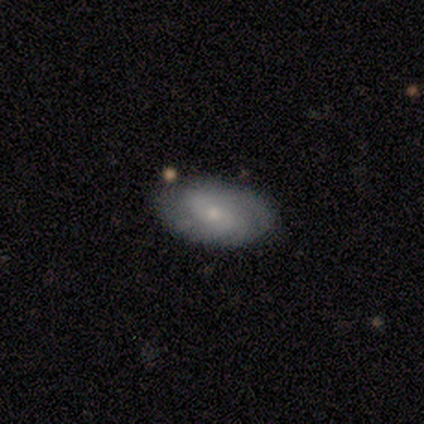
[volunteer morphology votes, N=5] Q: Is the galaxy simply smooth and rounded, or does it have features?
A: featured or disk — 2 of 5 (40%, tied with star or artifact).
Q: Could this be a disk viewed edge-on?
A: no — 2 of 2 (100%).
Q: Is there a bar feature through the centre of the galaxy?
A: strong — 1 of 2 (50%, tied with no).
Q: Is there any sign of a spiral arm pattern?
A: yes — 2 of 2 (100%).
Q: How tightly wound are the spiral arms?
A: loose — 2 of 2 (100%).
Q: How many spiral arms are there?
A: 2 — 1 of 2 (50%, tied with can't tell).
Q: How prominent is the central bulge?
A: small — 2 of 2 (100%).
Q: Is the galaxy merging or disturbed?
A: none — 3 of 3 (100%).